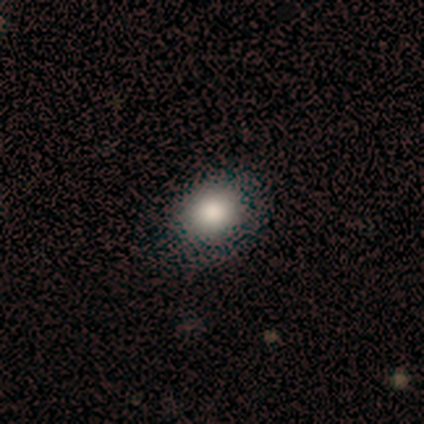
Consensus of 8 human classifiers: smooth_or_featured: smooth (p=0.88) [alt: star or artifact p=0.12]
how_rounded: round (p=0.57) [alt: in between p=0.43]
merging: none (p=1.00)